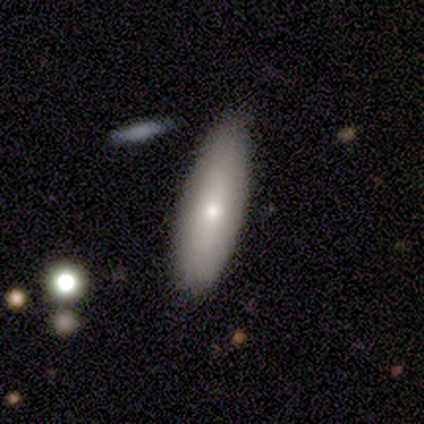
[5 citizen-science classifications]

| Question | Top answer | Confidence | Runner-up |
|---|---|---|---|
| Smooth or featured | smooth | 80% | featured or disk (20%) |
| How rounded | in between | 50% | tied: cigar-shaped (50%) |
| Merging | none | 80% | minor disturbance (20%) |